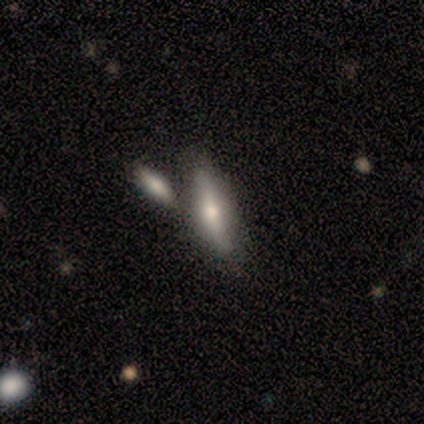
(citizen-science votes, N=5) A smooth galaxy with no disk features (40%, tied with featured or disk) that is in between round and cigar-shaped (50%, tied with cigar-shaped).

Vote fractions:
- Smooth or featured? smooth: 40% (tied) / featured or disk: 40% (tied) / star or artifact: 20%
- How rounded? in between: 50% (tied) / cigar-shaped: 50% (tied) / round: 0%
- Merging? merger: 50% / none: 25% / minor disturbance: 25% / major disturbance: 0%